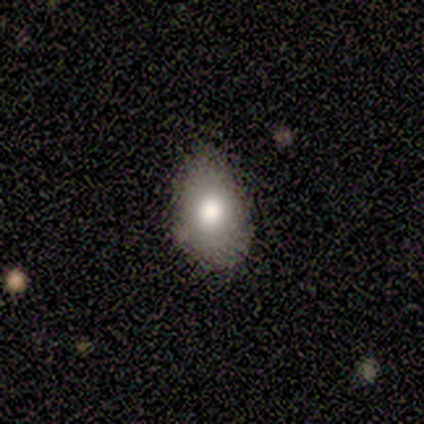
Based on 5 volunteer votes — smooth_or_featured: featured or disk (p=0.60) [alt: smooth p=0.40]
disk_edge_on: no (p=0.67) [alt: yes p=0.33]
bar: no (p=1.00)
has_spiral_arms: no (p=1.00)
bulge_size: large (p=0.50) [tied with: moderate p=0.50]
merging: minor disturbance (p=0.60) [alt: none p=0.40]